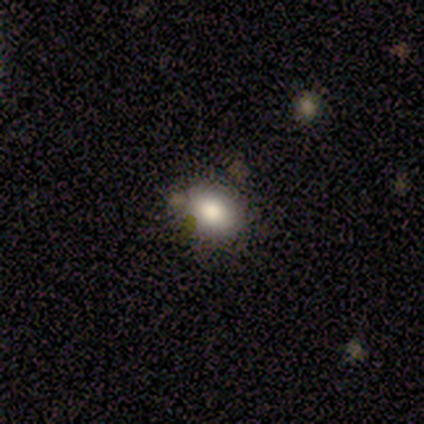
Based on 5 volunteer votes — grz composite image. It shows a smooth galaxy with no disk features (100%) that is round (80%). Merging: none (80%).